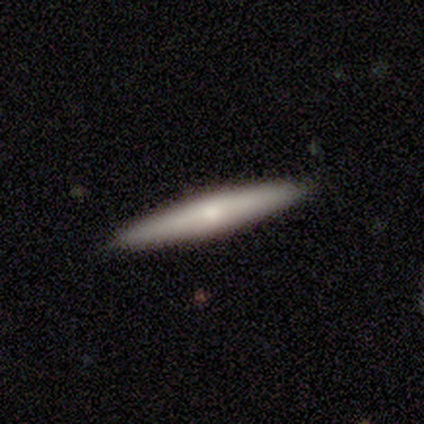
This appears to be a smooth galaxy with no disk features (100%) that is cigar-shaped (80%). Merging: none (100%).